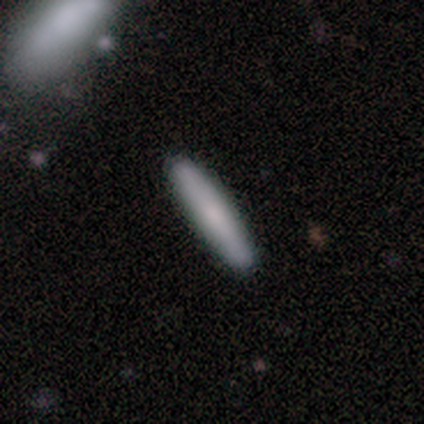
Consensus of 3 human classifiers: This appears to be a smooth galaxy with no disk features (100%) that is cigar-shaped (100%). Merging: none (100%).